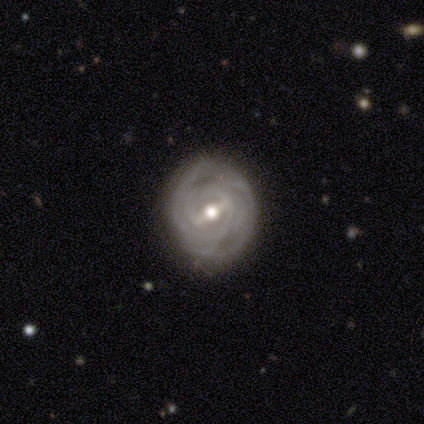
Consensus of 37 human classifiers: Smooth or featured: featured or disk — 92% (smooth — 8%)
Edge-on disk: no — 100%
Bar: strong — 65% (weak — 24%)
Spiral arms: yes — 94% (no — 6%)
Spiral winding: tight — 84% (medium — 9%)
Spiral arm count: can't tell — 41% (2 — 16%)
Bulge size: moderate — 74% (small — 21%)
Merging: none — 86% (minor disturbance — 8%)